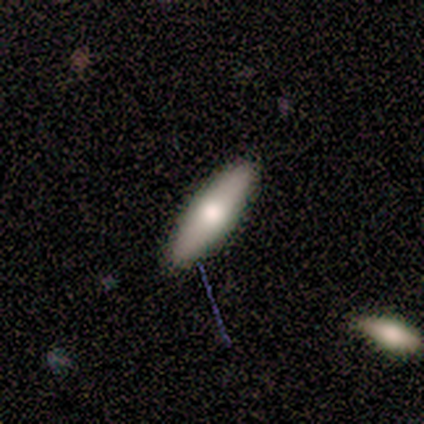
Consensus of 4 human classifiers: Smooth or featured? smooth (100%)
How rounded? in between (50%, tied with cigar-shaped)
Merging? none (75%)